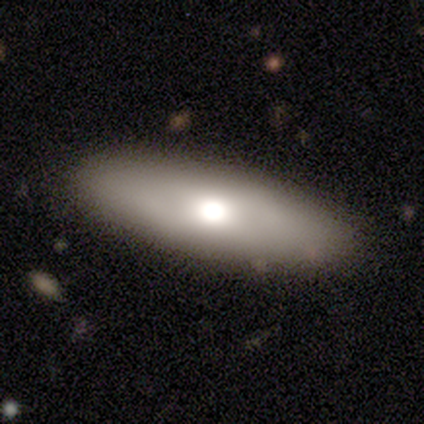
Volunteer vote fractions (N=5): This appears to be a smooth galaxy with no disk features (60%) that is in between round and cigar-shaped (100%). Merging: none (80%).